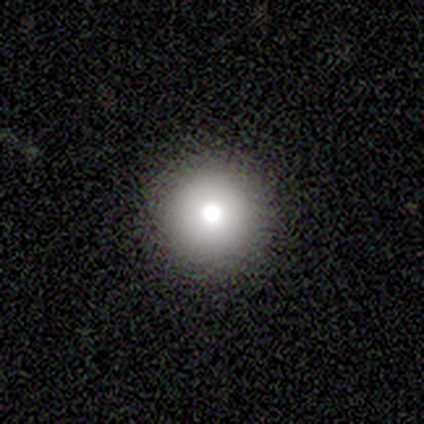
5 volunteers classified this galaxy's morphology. smooth 60%, featured or disk 40%, star or artifact 0%. Down the decision tree: how rounded — round (100%); merging — none (100%).